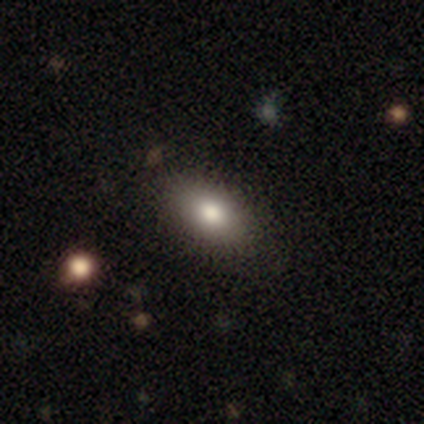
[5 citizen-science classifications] Morphology: type=smooth (80%); roundness=in between (100%); merging=none (100%).